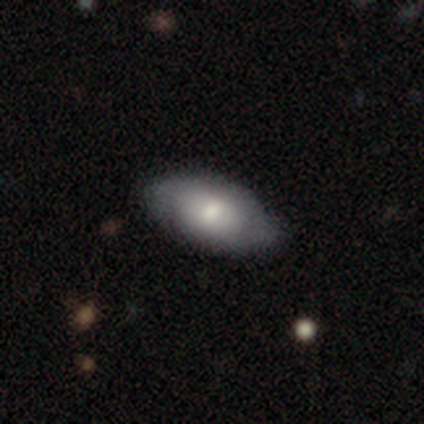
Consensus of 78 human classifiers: Q: Smooth or featured?
A: smooth (69%); runner-up: featured or disk (28%)
Q: How rounded?
A: in between (94%); runner-up: cigar-shaped (4%)
Q: Merging?
A: none (50%); runner-up: minor disturbance (12%)